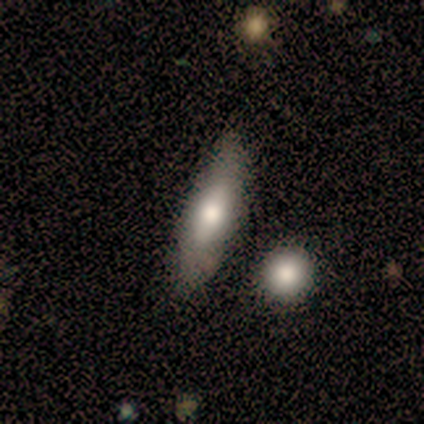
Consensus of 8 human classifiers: Smooth or featured?
  - smooth: 75% *
  - featured or disk: 12%
  - star or artifact: 12%
How rounded?
  - in between: 50% * (tied)
  - cigar-shaped: 50% * (tied)
  - round: 0%
Merging?
  - none: 71% *
  - minor disturbance: 29%
  - major disturbance: 0%
  - merger: 0%